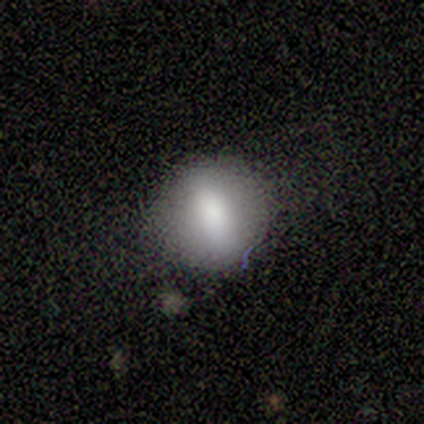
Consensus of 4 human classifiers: smooth_or_featured: smooth (p=0.50) [tied with: featured or disk p=0.50]
how_rounded: round (p=1.00)
merging: none (p=0.75) [alt: minor disturbance p=0.25]